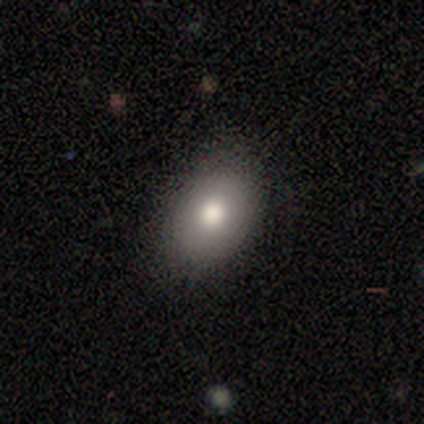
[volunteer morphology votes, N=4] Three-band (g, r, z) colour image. It shows a smooth galaxy with no disk features (100%) that is in between round and cigar-shaped (75%). Merging: none (100%).